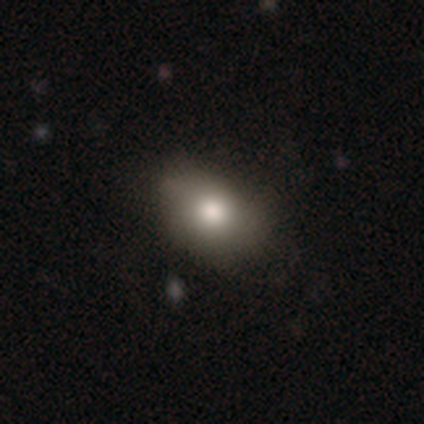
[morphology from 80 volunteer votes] Smooth or featured? smooth (81%)
How rounded? in between (83%)
Merging? none (39%)